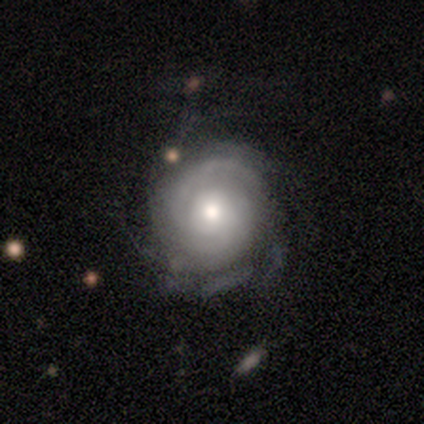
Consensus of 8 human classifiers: Smooth or featured? featured or disk (62%)
Edge-on disk? no (100%)
Bar? no (100%)
Spiral arms? yes (80%)
Spiral winding? loose (50%)
Spiral arm count? 3 (50%)
Bulge size? moderate (80%)
Merging? none (62%)